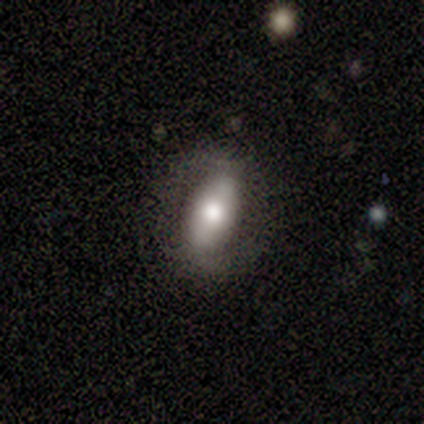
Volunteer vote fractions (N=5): Smooth or featured: smooth — 80% (featured or disk — 20%)
How rounded: in between — 100%
Merging: none — 100%